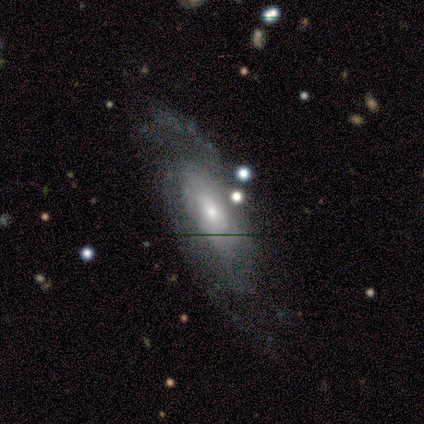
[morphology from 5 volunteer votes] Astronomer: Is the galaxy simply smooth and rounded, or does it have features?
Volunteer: featured or disk — 100%.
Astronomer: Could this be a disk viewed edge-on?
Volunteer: no — 100%.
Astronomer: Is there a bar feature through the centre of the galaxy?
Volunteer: no — 80%.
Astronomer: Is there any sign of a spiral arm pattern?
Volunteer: yes — 100%.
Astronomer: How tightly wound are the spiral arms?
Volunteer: tight — 40%, tied with medium at 40%.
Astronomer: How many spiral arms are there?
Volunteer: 2 — 40%, tied with can't tell at 40%.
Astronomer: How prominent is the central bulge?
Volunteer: moderate — 60% (runner-up: small, 40%).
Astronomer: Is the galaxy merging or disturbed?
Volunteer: none — 60% (runner-up: minor disturbance, 40%).